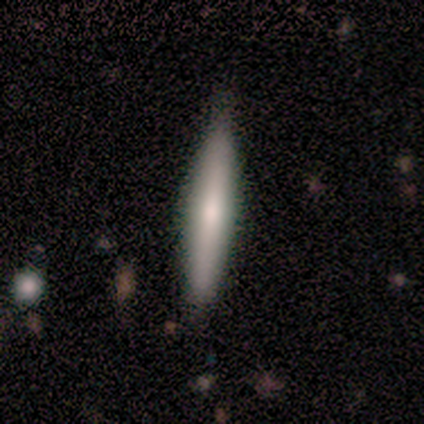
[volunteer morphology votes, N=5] Smooth or featured? 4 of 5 (80%) said featured or disk. Edge-on disk? 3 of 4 (75%) said yes. Edge-on bulge? 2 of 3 (67%) said rounded. Merging? 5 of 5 (100%) said none.